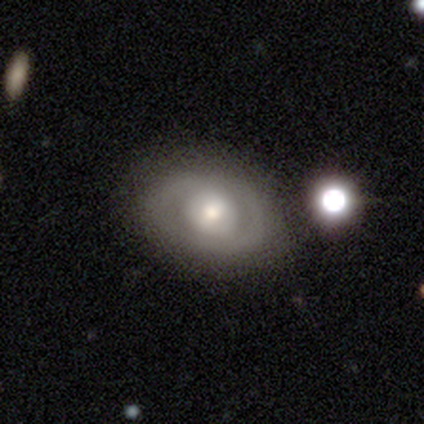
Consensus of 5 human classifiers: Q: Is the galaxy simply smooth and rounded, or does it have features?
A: featured or disk — 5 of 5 (100%).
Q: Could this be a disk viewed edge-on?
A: no — 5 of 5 (100%).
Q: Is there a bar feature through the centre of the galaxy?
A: weak — 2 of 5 (40%, tied with no).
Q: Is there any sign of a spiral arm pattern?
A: yes — 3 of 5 (60%).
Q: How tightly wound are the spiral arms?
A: medium — 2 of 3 (67%).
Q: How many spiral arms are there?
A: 2 — 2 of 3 (67%).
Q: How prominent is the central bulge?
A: small — 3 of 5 (60%).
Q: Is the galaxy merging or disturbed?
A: none — 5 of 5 (100%).